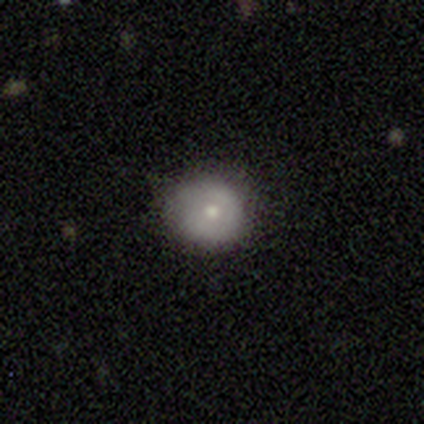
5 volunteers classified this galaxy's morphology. A smooth galaxy with no disk features (100%) that is round (100%). Merging: none (60%).